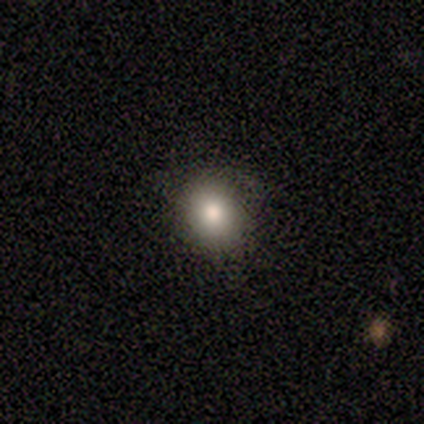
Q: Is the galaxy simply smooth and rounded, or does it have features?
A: smooth — 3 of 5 (60%).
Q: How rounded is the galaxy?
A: in between — 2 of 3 (67%).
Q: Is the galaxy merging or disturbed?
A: none — 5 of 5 (100%).